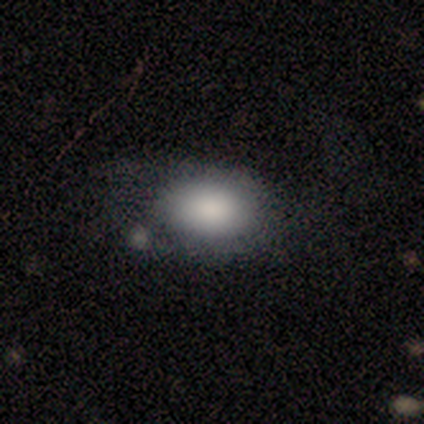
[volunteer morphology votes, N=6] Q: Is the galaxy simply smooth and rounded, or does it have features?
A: smooth — 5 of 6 (83%).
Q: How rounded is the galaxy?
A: in between — 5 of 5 (100%).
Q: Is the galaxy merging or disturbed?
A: minor disturbance — 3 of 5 (60%).